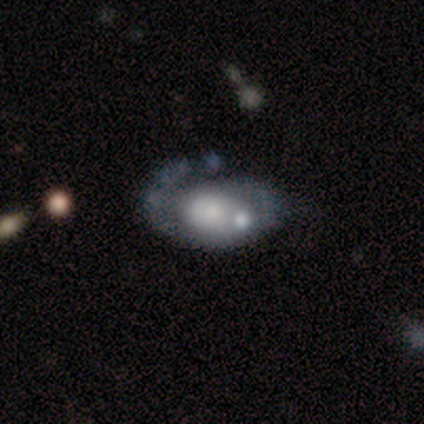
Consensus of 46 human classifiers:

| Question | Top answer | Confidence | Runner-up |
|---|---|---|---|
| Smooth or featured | featured or disk | 59% | smooth (33%) |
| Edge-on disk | no | 93% | yes (7%) |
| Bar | no | 88% | weak (12%) |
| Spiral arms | yes | 76% | no (24%) |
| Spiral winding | tight | 53% | medium (37%) |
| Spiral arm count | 1 | 53% | can't tell (32%) |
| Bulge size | small | 40% | moderate (24%) |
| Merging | major disturbance | 38% | none (31%) |